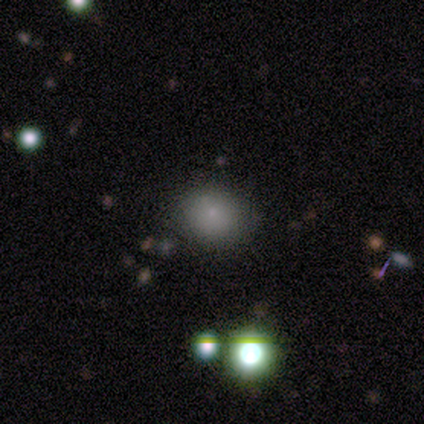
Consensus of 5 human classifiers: Smooth or featured?
  - smooth: 40% * (tied)
  - featured or disk: 40% * (tied)
  - star or artifact: 20%
How rounded?
  - round: 50% * (tied)
  - in between: 50% * (tied)
  - cigar-shaped: 0%
Merging?
  - none: 100% *
  - minor disturbance: 0%
  - major disturbance: 0%
  - merger: 0%